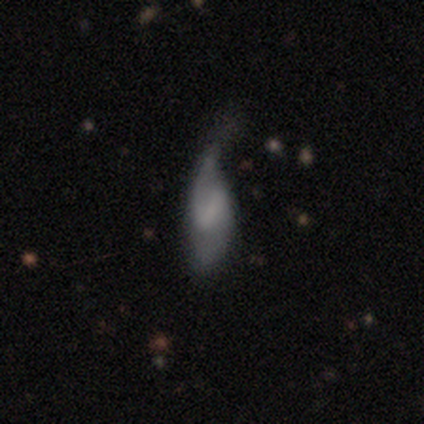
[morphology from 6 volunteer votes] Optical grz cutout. It shows a featured or disk galaxy (67%) with a weak bar (50%), 2 (75%) loose (50%) spiral arms (100%) and no central bulge (75%). Merging: none (33%, tied with minor disturbance and major disturbance).